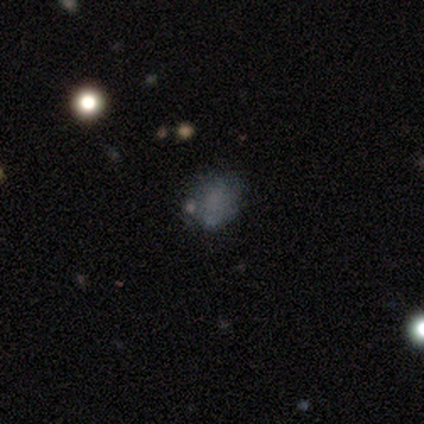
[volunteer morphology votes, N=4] Smooth or featured?
  - smooth: 75% *
  - star or artifact: 25%
  - featured or disk: 0%
How rounded?
  - in between: 67% *
  - round: 33%
  - cigar-shaped: 0%
Merging?
  - none: 67% *
  - major disturbance: 33%
  - minor disturbance: 0%
  - merger: 0%